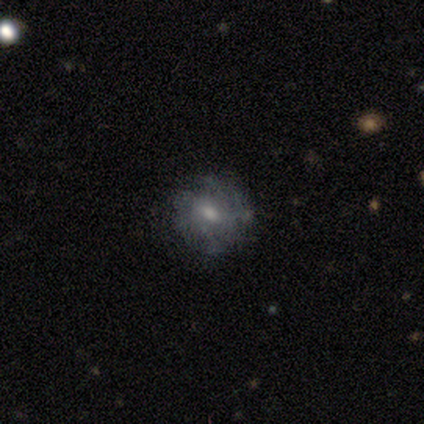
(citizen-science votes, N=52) Q: Smooth or featured?
A: featured or disk (62%); runner-up: smooth (33%)
Q: Edge-on disk?
A: no (100%)
Q: Bar?
A: no (62%); runner-up: weak (34%)
Q: Spiral arms?
A: yes (62%); runner-up: no (38%)
Q: Spiral winding?
A: tight (60%); runner-up: medium (30%)
Q: Spiral arm count?
A: can't tell (70%); runner-up: 4 (20%)
Q: Bulge size?
A: moderate (47%); runner-up: small (44%)
Q: Merging?
A: none (67%); runner-up: minor disturbance (22%)